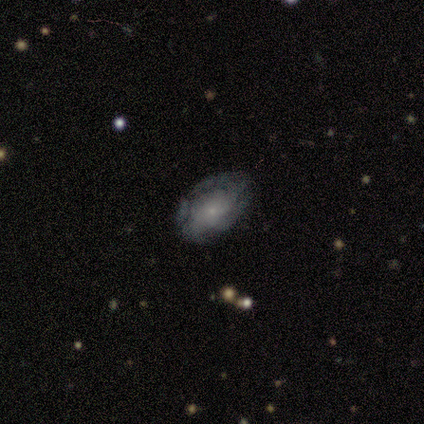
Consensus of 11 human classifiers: smooth-or-featured: featured or disk: 73% | smooth: 27% | star or artifact: 0%
  disk-edge-on: no: 88% | yes: 12%
    bar: no: 86% | weak: 14% | strong: 0%
    has-spiral-arms: yes: 71% | no: 29%
      spiral-winding: tight: 40% (tied) | medium: 40% (tied) | loose: 20%
      spiral-arm-count: 4: 40% (tied) | can't tell: 40% (tied) | 3: 20% | 1: 0% | 2: 0% | more than 4: 0%
    bulge-size: small: 86% | none: 14% | dominant: 0% | large: 0% | moderate: 0%
  merging: none: 45% (tied) | minor disturbance: 45% (tied) | major disturbance: 9% | merger: 0%